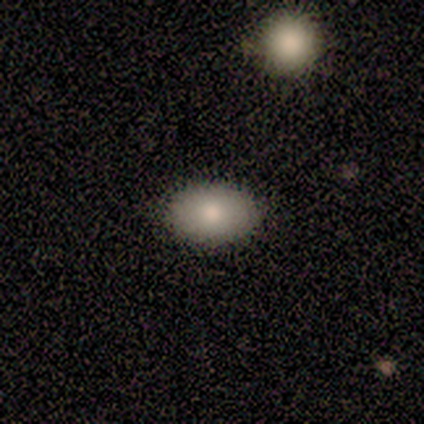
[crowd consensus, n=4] smooth_or_featured: smooth (p=0.75) [alt: featured or disk p=0.25]
how_rounded: in between (p=0.67) [alt: round p=0.33]
merging: none (p=1.00)